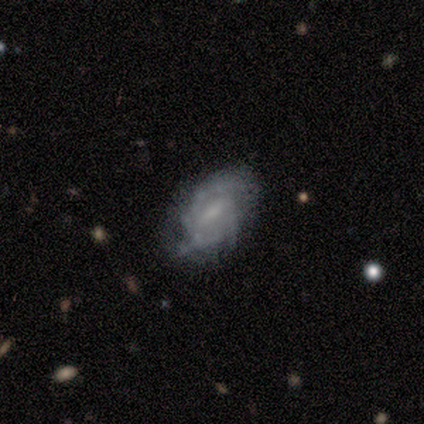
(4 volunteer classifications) A featured or disk galaxy (100%) with a weak bar (50%), 3 (100%) tight (50%, tied with medium) spiral arms (50%, tied with no) and a small central bulge (75%). Merging: none (100%).